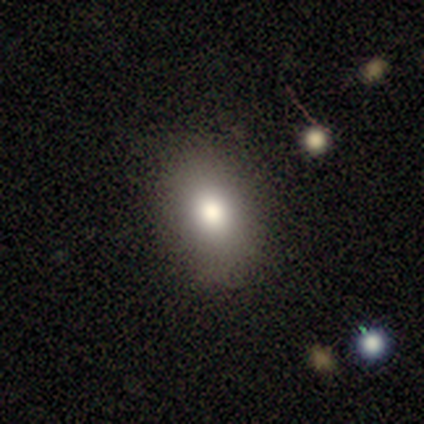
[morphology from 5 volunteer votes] Consensus on every question: smooth or featured — smooth (100%); how rounded — in between (100%); merging — none (100%).